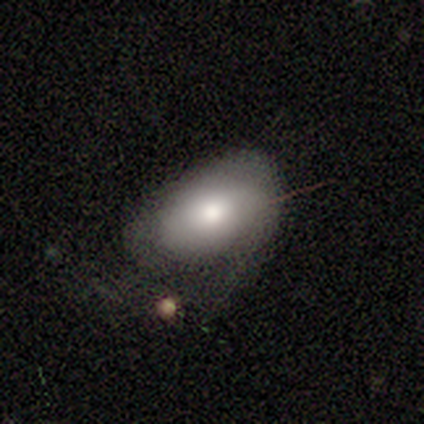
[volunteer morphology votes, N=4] Smooth or featured? 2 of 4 (50%) said smooth. How rounded? 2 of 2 (100%) said in between. Merging? 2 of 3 (67%) said minor disturbance.